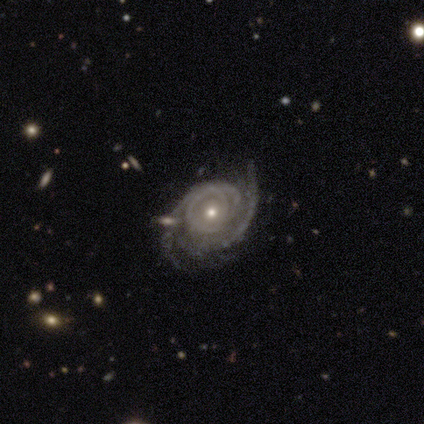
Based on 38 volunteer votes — This is clearly a featured or disk galaxy (97%). It is clearly not viewed edge-on (100%). Bar: likely no (65%). Spiral arm pattern: clearly yes (95%). Spiral arm count: marginally can't tell (40%). Spiral winding: likely tight (66%). Central bulge: possibly small (51%). Merging: possibly none (59%).